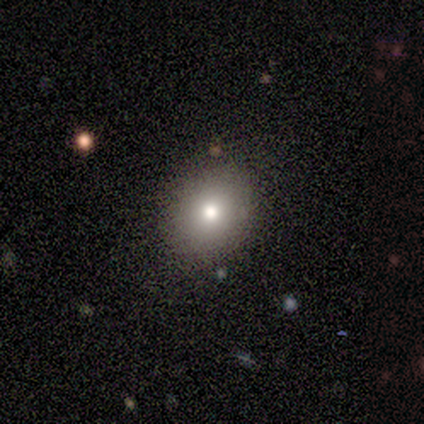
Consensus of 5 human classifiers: Smooth or featured?
  - smooth: 60% *
  - featured or disk: 40%
  - star or artifact: 0%
How rounded?
  - in between: 100% *
  - round: 0%
  - cigar-shaped: 0%
Merging?
  - none: 80% *
  - minor disturbance: 20%
  - major disturbance: 0%
  - merger: 0%